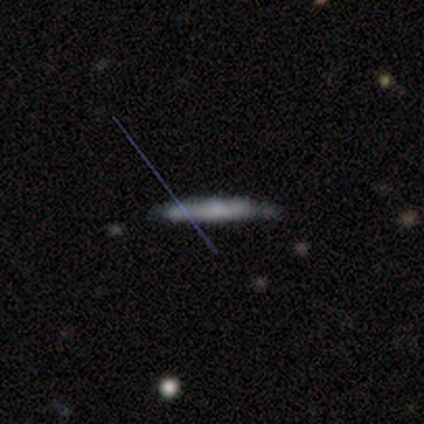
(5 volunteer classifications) Smooth or featured?
  - featured or disk: 100% *
  - smooth: 0%
  - star or artifact: 0%
Edge-on disk?
  - yes: 100% *
  - no: 0%
Edge-on bulge?
  - rounded: 80% *
  - none: 20%
  - boxy: 0%
Merging?
  - none: 60% *
  - minor disturbance: 40%
  - major disturbance: 0%
  - merger: 0%